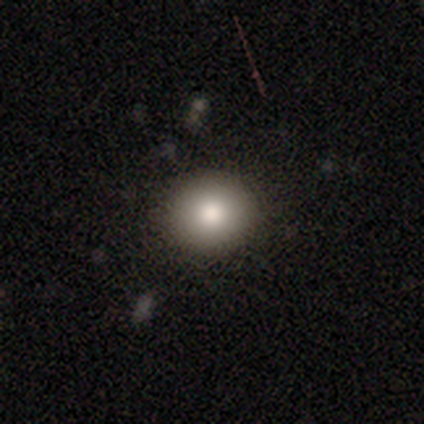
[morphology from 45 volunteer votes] Q: Smooth or featured?
A: smooth (80%); runner-up: featured or disk (11%)
Q: How rounded?
A: round (86%); runner-up: in between (14%)
Q: Merging?
A: none (93%); runner-up: minor disturbance (7%)